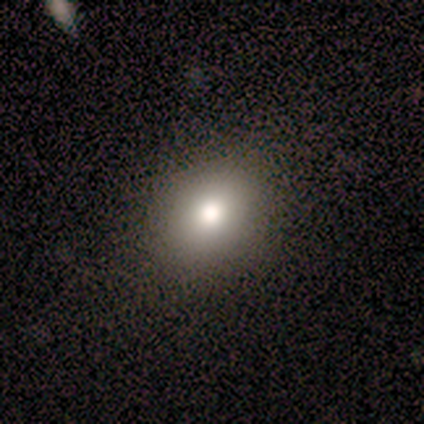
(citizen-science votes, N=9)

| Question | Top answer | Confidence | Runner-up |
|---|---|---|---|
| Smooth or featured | smooth | 100% | — |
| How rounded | round | 67% | in between (33%) |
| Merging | none | 100% | — |